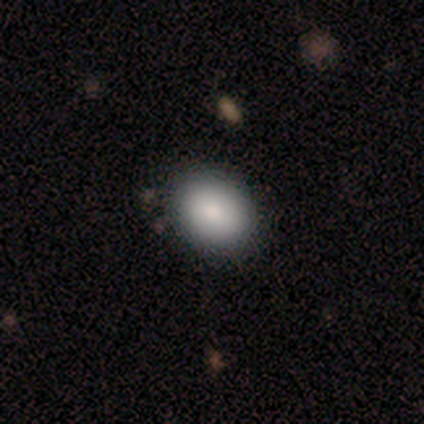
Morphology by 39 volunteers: A smooth galaxy with no disk features (87%) that is in between round and cigar-shaped (59%).

Vote fractions:
- Smooth or featured? smooth: 87% / star or artifact: 10% / featured or disk: 3%
- How rounded? in between: 59% / round: 41% / cigar-shaped: 0%
- Merging? none: 91% / minor disturbance: 3% / major disturbance: 3% / merger: 3%